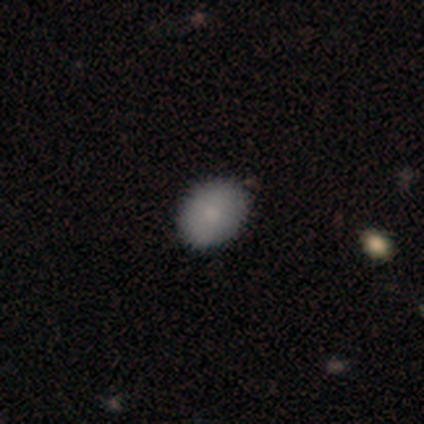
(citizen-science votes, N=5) Morphology: type=smooth (100%); roundness=in between (60%); merging=none (100%).